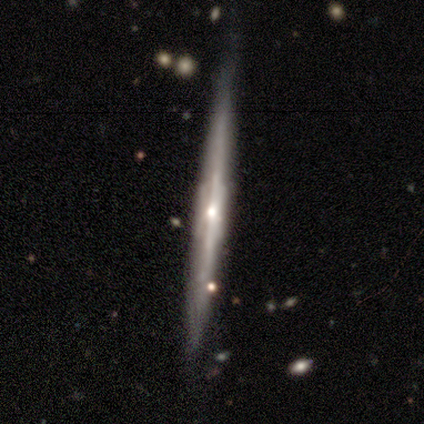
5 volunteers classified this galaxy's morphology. Overall: featured or disk (80%). Edge-on disk: yes (75%). Edge-on bulge: boxy (67%; none 33%). Merging: none (100%).